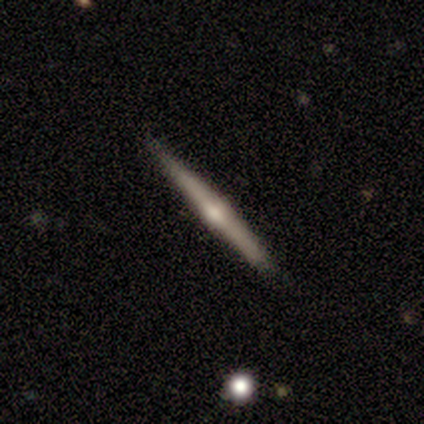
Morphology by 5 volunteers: Smooth or featured: featured or disk — 60% (smooth — 20%)
Edge-on disk: yes — 100%
Edge-on bulge: rounded — 100%
Merging: none — 75% (minor disturbance — 25%)